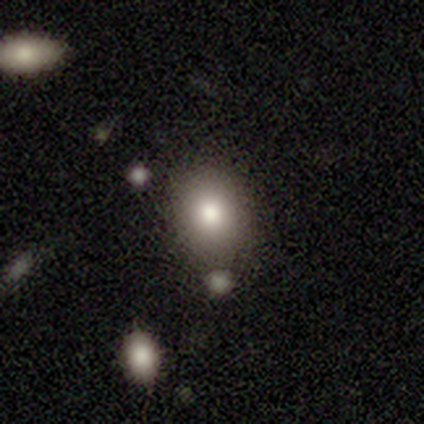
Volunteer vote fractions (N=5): smooth 60%, featured or disk 20%, star or artifact 20%. Down the decision tree: how rounded — round (67%); merging — none (75%).